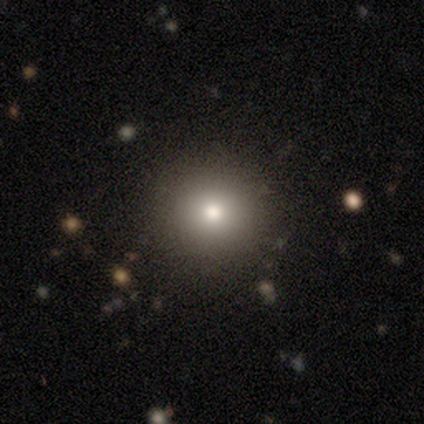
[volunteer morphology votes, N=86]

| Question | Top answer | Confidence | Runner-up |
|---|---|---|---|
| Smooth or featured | smooth | 73% | star or artifact (21%) |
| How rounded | round | 94% | in between (6%) |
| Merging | none | 90% | minor disturbance (9%) |